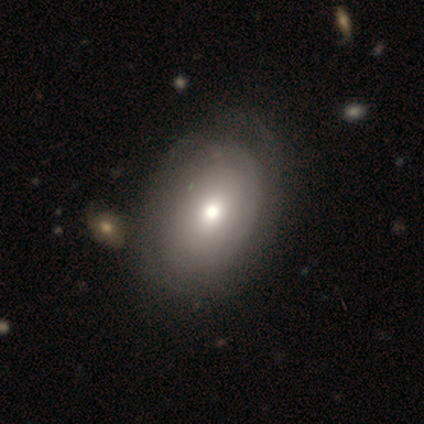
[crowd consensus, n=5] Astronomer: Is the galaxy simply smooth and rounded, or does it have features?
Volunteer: featured or disk — 60% (runner-up: smooth, 40%).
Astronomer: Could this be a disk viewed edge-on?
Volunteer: no — 100%.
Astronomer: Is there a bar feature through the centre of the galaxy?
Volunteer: no — 100%.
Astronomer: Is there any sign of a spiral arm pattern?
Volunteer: no — 67%.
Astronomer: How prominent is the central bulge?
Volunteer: moderate — 100%.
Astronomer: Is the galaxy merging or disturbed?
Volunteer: none — 40%, tied with merger at 40%.